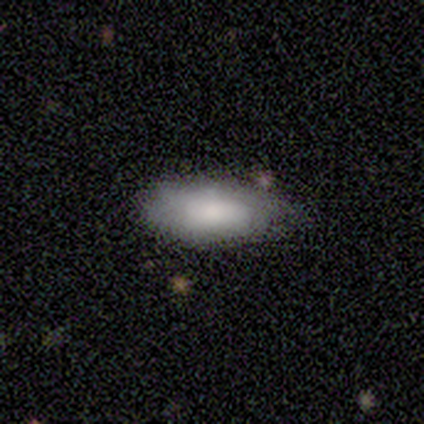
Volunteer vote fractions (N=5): Smooth or featured? 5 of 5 (100%) said smooth. How rounded? 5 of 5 (100%) said in between. Merging? 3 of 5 (60%) said none.